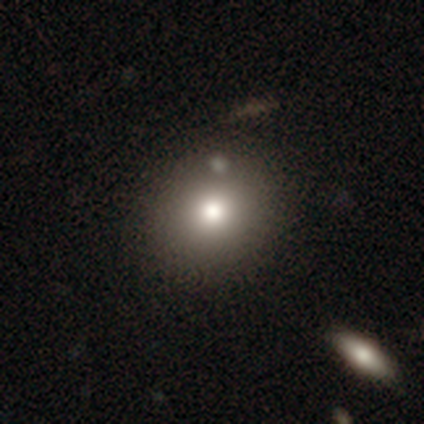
This appears to be a featured or disk galaxy (50%) viewed edge-on (50%, tied with no) with a rounded central bulge (100%). Merging: none (33%, tied with minor disturbance and merger).